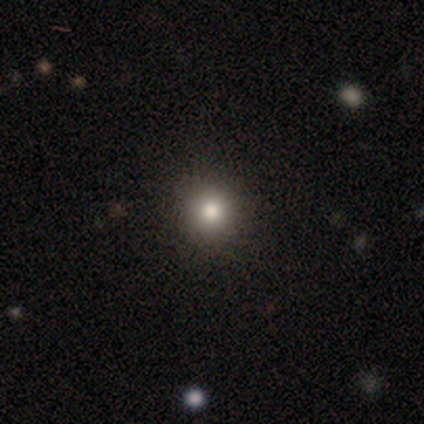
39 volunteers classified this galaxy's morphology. Smooth or featured? smooth (72%)
How rounded? round (93%)
Merging? none (100%)